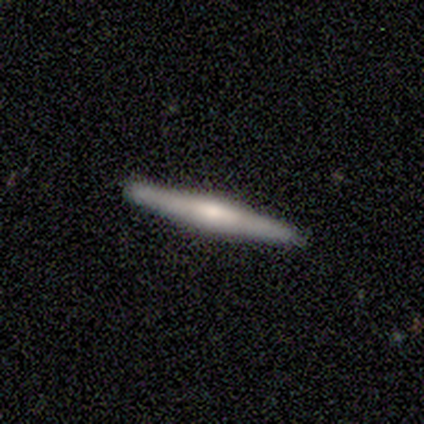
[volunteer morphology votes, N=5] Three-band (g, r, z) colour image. It shows a featured or disk galaxy (80%) viewed edge-on (100%) with no central bulge (50%, tied with rounded). Merging: none (80%).